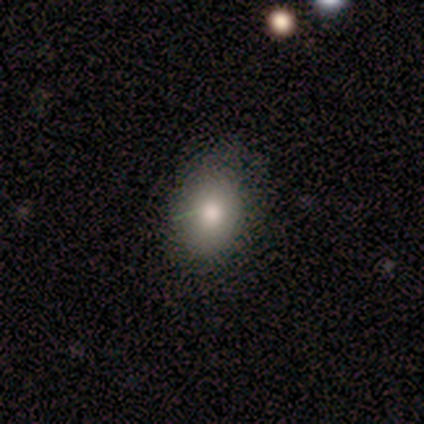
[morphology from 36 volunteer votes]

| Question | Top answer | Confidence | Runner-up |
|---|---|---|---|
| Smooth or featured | smooth | 72% | featured or disk (14%) |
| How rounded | in between | 73% | round (27%) |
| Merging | none | 68% | minor disturbance (23%) |